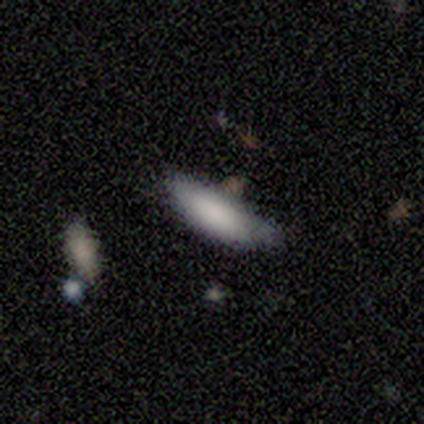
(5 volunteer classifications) Morphology: type=smooth (100%); roundness=in between (80%); merging=none (60%).